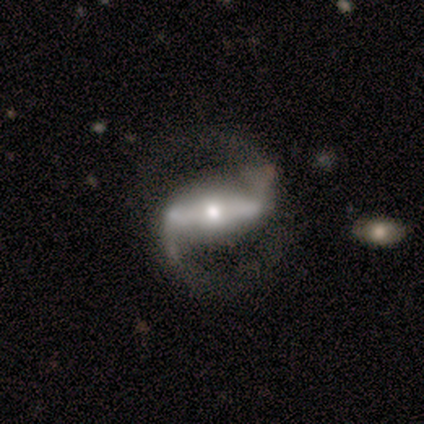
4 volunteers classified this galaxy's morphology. A featured or disk galaxy (100%) with a strong bar (75%), 2 (100%) medium (75%) spiral arms (100%) and a moderate central bulge (50%, tied with small). Merging: none (50%).